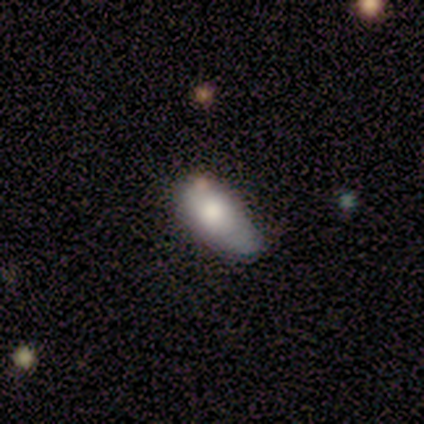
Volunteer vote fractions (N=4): A smooth galaxy with no disk features (100%) that is in between round and cigar-shaped (50%).

Vote fractions:
- Smooth or featured? smooth: 100% / featured or disk: 0% / star or artifact: 0%
- How rounded? in between: 50% / round: 25% / cigar-shaped: 25%
- Merging? none: 50% / minor disturbance: 25% / merger: 25% / major disturbance: 0%